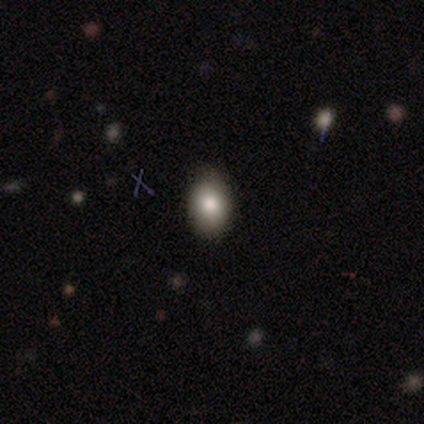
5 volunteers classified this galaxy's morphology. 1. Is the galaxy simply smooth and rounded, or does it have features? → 80% smooth, 20% star or artifact, 0% featured or disk.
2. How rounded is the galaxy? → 100% in between, 0% round, 0% cigar-shaped.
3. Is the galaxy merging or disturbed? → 75% none, 25% major disturbance, 0% minor disturbance, 0% merger.